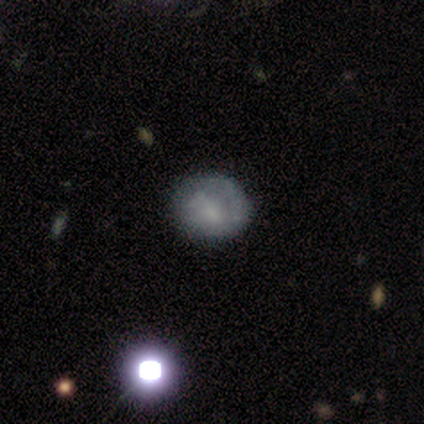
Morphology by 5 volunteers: Overall: smooth (60%; featured or disk 20%). How rounded: round (67%; in between 33%). Merging: none (100%).